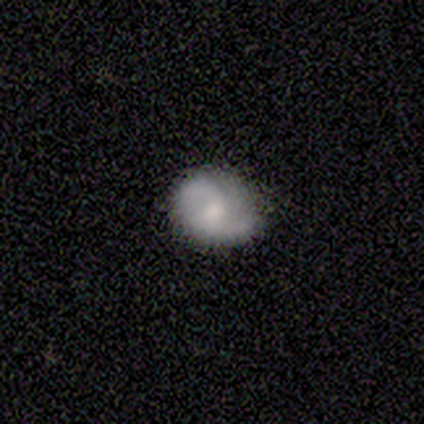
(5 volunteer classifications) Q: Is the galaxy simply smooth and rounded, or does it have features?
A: featured or disk — 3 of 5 (60%).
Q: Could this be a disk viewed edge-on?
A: no — 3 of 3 (100%).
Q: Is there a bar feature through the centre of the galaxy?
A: weak — 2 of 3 (67%).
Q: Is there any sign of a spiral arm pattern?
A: yes — 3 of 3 (100%).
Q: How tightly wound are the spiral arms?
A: medium — 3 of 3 (100%).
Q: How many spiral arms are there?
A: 2 — 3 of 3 (100%).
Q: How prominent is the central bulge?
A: moderate — 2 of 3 (67%).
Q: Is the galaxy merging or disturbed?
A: none — 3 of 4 (75%).